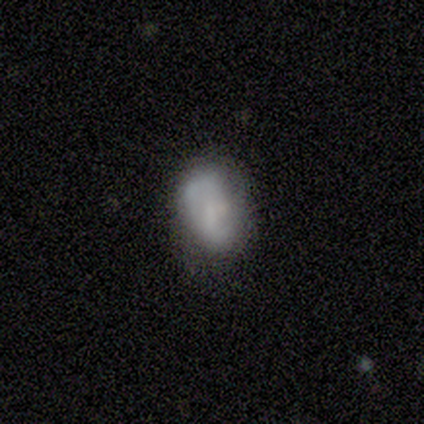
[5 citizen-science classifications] A featured or disk galaxy (80%) with no bar (100%), no spiral arms (75%) and a small central bulge (75%). Merging: minor disturbance (60%).